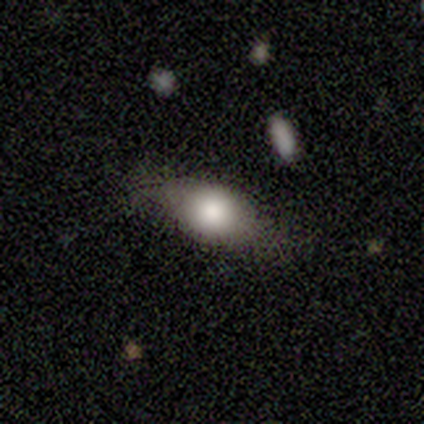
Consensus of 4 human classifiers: This is clearly a smooth galaxy (100%). How rounded: possibly in between (50%). Merging: likely minor disturbance (75%).